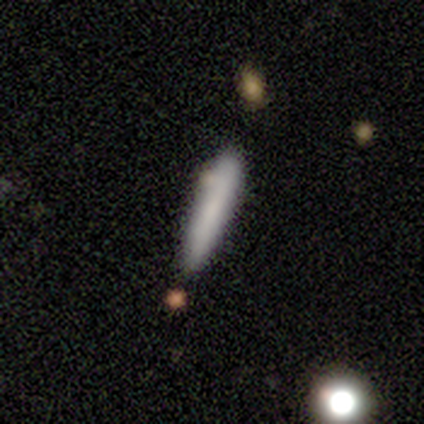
smooth 78%, featured or disk 16%, star or artifact 5%. Down the decision tree: how rounded — cigar-shaped (93%); merging — none (80%).